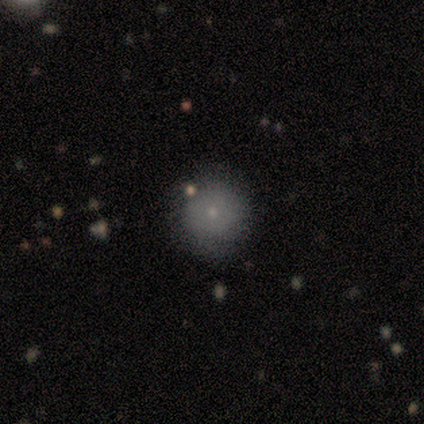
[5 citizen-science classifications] Smooth or featured?
  - smooth: 100% *
  - featured or disk: 0%
  - star or artifact: 0%
How rounded?
  - round: 60% *
  - in between: 40%
  - cigar-shaped: 0%
Merging?
  - none: 80% *
  - minor disturbance: 20%
  - major disturbance: 0%
  - merger: 0%